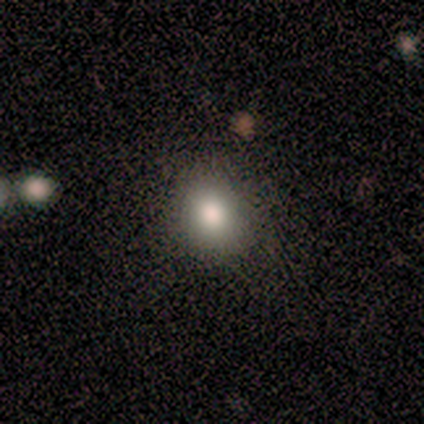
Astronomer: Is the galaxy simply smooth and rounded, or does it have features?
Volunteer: smooth — 100%.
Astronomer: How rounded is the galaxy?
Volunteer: round — 60% (runner-up: in between, 40%).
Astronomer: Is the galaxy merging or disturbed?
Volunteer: none — 60% (runner-up: minor disturbance, 40%).